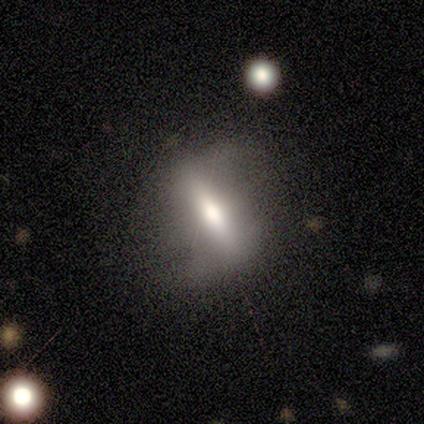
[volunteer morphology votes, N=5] type=smooth (60%); roundness=in between (67%); merging=none (60%).